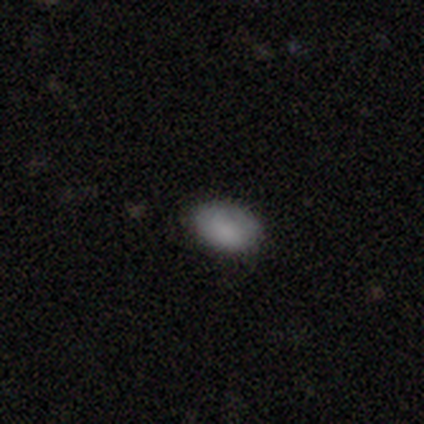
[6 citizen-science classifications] This appears to be a smooth galaxy with no disk features (83%) that is in between round and cigar-shaped (80%). Merging: none (80%).